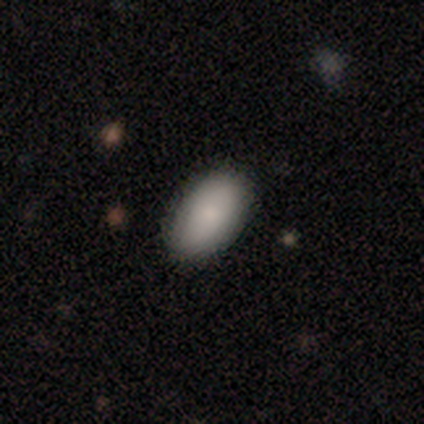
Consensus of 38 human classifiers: This appears to be a smooth galaxy with no disk features (95%) that is in between round and cigar-shaped (94%). Merging: none (100%).